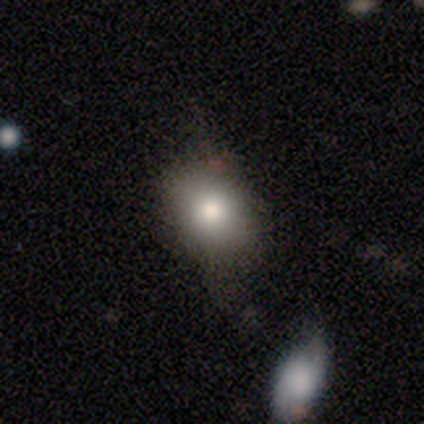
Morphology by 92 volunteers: A smooth galaxy with no disk features (73%) that is in between round and cigar-shaped (63%).

Vote fractions:
- Smooth or featured? smooth: 73% / featured or disk: 16% / star or artifact: 11%
- How rounded? in between: 63% / round: 37% / cigar-shaped: 0%
- Merging? none: 52% / minor disturbance: 33% / major disturbance: 12% / merger: 2%